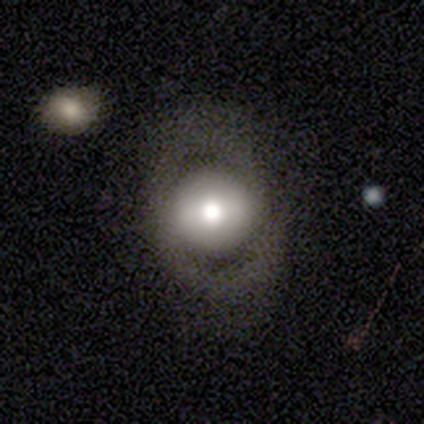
Volunteers were most divided on "smooth or featured": smooth: 52%, featured or disk: 40%, star or artifact: 9%. More confident: how rounded — round (81%); merging — none (70%).